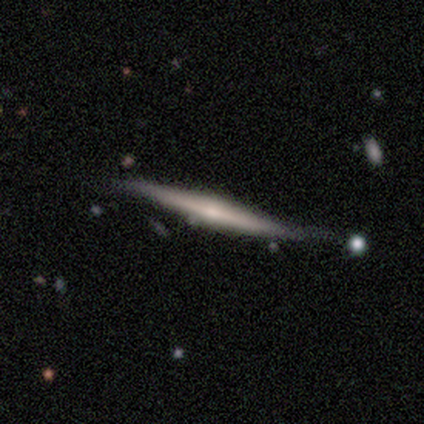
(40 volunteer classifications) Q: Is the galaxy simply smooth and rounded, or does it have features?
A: featured or disk — 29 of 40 (72%).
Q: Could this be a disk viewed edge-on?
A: yes — 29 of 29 (100%).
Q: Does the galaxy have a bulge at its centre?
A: rounded — 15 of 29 (52%).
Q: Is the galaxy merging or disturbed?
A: none — 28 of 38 (74%).